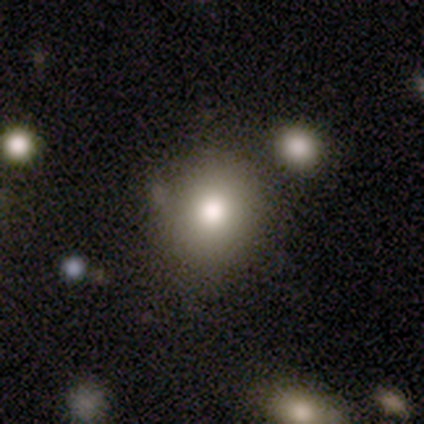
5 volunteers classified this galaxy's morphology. This is marginally a smooth galaxy (40%, tied with star or artifact). How rounded: clearly round (100%). Merging: marginally none (33%, tied with minor disturbance and merger).